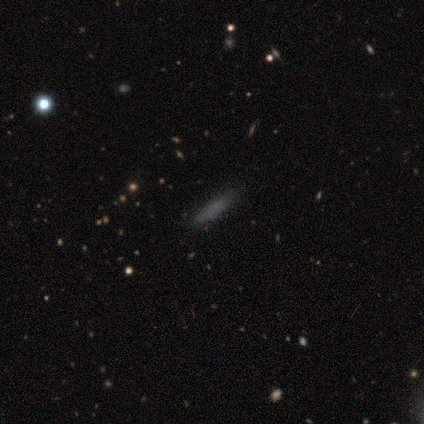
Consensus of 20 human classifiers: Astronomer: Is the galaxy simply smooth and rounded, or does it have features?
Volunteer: smooth — 90%.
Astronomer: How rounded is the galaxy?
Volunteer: cigar-shaped — 89%.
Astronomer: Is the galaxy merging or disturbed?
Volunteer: none — 84%.